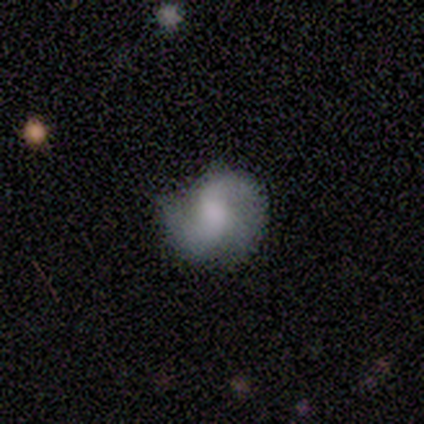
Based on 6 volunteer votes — Smooth or featured?
  - featured or disk: 83% *
  - star or artifact: 17%
  - smooth: 0%
Edge-on disk?
  - no: 100% *
  - yes: 0%
Bar?
  - weak: 60% *
  - no: 40%
  - strong: 0%
Spiral arms?
  - yes: 100% *
  - no: 0%
Spiral winding?
  - loose: 80% *
  - medium: 20%
  - tight: 0%
Spiral arm count?
  - 2: 100% *
  - 1: 0%
  - 3: 0%
  - 4: 0%
  - more than 4: 0%
  - can't tell: 0%
Bulge size?
  - none: 80% *
  - moderate: 20%
  - dominant: 0%
  - large: 0%
  - small: 0%
Merging?
  - major disturbance: 60% *
  - none: 20%
  - minor disturbance: 20%
  - merger: 0%